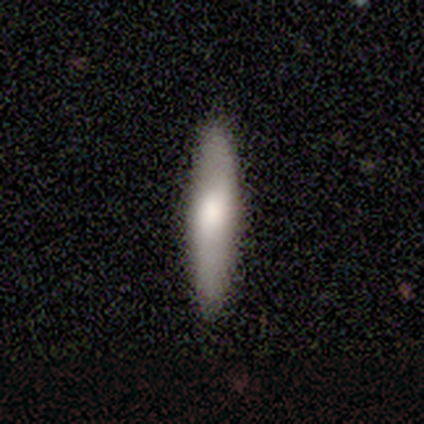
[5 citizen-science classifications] Smooth or featured? 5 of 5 (100%) said smooth. How rounded? 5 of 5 (100%) said cigar-shaped. Merging? 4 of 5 (80%) said none.